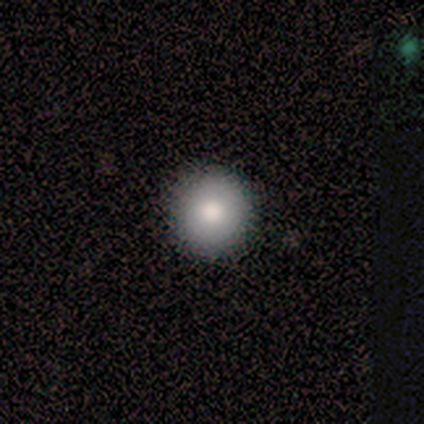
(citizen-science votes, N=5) Smooth or featured? smooth (80%)
How rounded? round (100%)
Merging? none (100%)